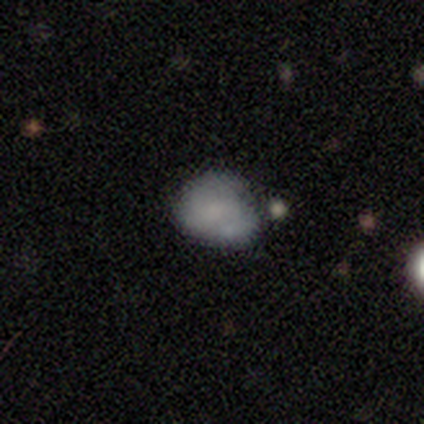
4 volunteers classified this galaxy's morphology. smooth-or-featured: smooth: 100% | featured or disk: 0% | star or artifact: 0%
  how-rounded: round: 50% (tied) | in between: 50% (tied) | cigar-shaped: 0%
  merging: none: 75% | merger: 25% | minor disturbance: 0% | major disturbance: 0%